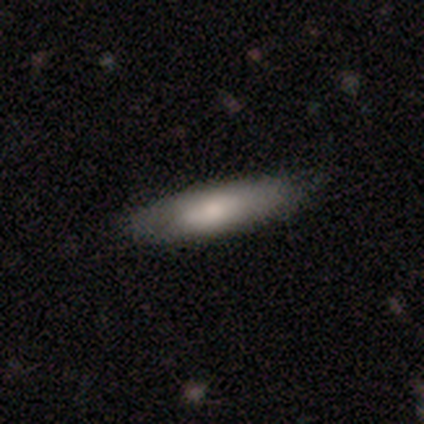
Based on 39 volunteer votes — This is clearly a smooth galaxy (82%). How rounded: likely cigar-shaped (72%). Merging: clearly none (81%).